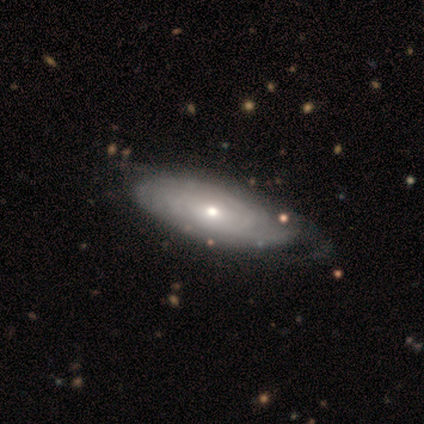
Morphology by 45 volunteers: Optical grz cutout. It shows a featured or disk galaxy (73%) with no bar (96%), tight (78%) spiral arms (67%) and a small central bulge (63%). Merging: none (64%).